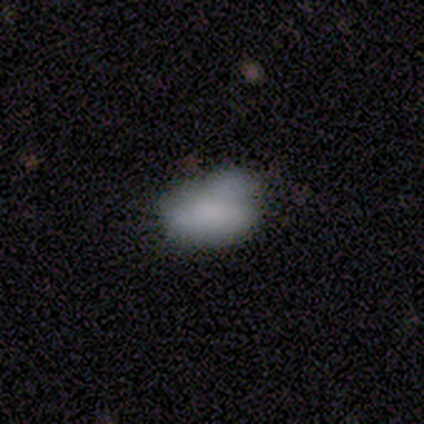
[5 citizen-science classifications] Smooth or featured: smooth — 80% (featured or disk — 20%)
How rounded: in between — 75% (round — 25%)
Merging: minor disturbance — 80% (none — 20%)